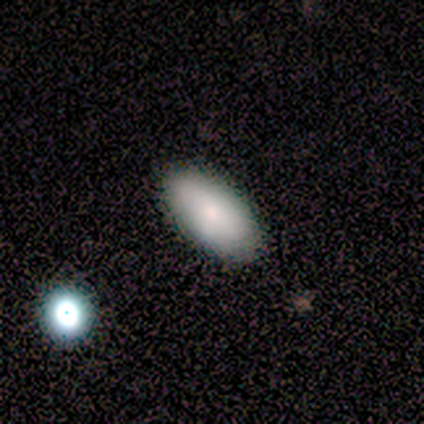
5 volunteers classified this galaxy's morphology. smooth 80%, featured or disk 20%, star or artifact 0%. Down the decision tree: how rounded — in between (75%); merging — none (100%).